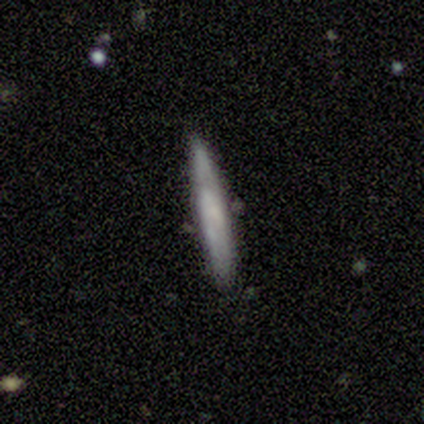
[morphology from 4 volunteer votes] Overall: smooth (75%). How rounded: cigar-shaped (100%). Merging: none (75%).